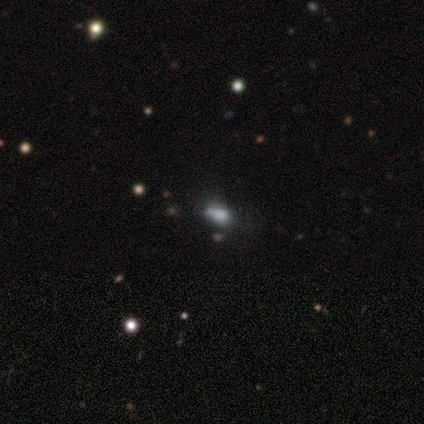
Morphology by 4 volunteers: smooth_or_featured: smooth (p=0.75) [alt: star or artifact p=0.25]
how_rounded: in between (p=0.67) [alt: round p=0.33]
merging: minor disturbance (p=0.67) [alt: merger p=0.33]